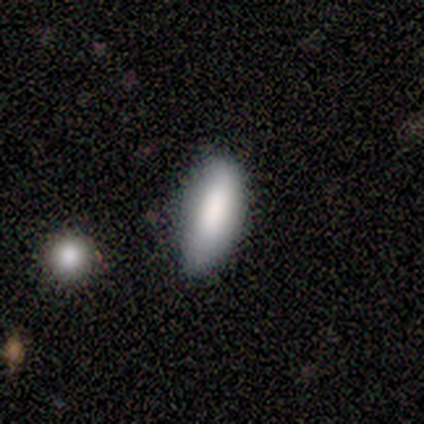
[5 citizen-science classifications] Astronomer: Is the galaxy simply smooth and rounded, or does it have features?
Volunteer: smooth — 100%.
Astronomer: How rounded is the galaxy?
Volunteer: in between — 100%.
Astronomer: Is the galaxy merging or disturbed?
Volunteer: none — 60%.